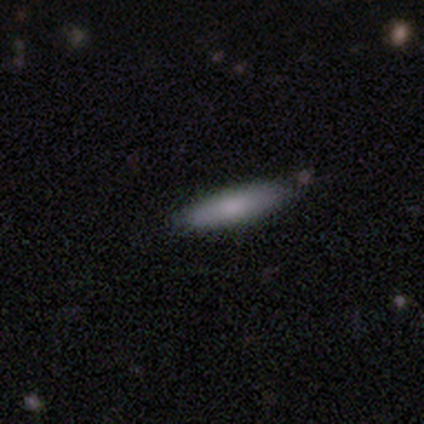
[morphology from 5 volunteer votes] A smooth galaxy with no disk features (100%) that is cigar-shaped (100%).

Vote fractions:
- Smooth or featured? smooth: 100% / featured or disk: 0% / star or artifact: 0%
- How rounded? cigar-shaped: 100% / round: 0% / in between: 0%
- Merging? none: 100% / minor disturbance: 0% / major disturbance: 0% / merger: 0%